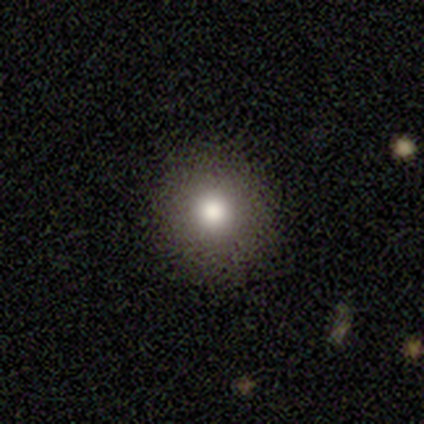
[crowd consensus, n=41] This is likely a smooth galaxy (76%). How rounded: clearly round (90%). Merging: clearly none (89%).